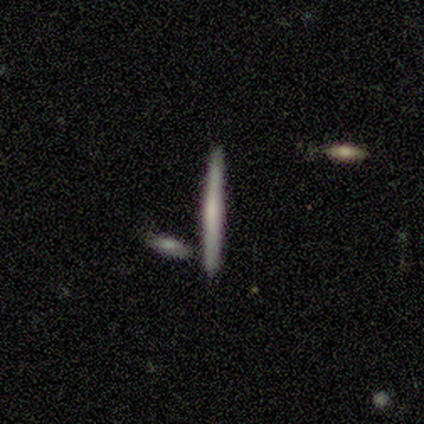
Overall: smooth (60%; featured or disk 40%). How rounded: cigar-shaped (100%). Merging: none (100%).